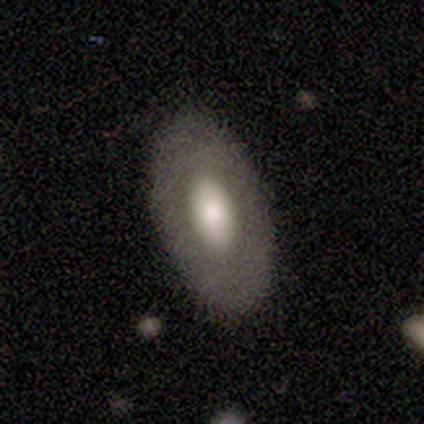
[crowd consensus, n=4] Smooth or featured: smooth — 75% (featured or disk — 25%)
How rounded: in between — 100%
Merging: none — 100%